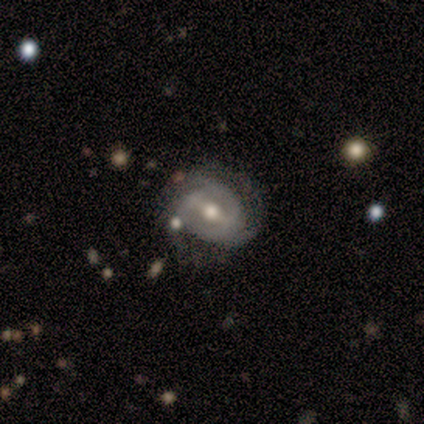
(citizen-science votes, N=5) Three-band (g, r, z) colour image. It shows a featured or disk galaxy (100%) with a weak bar (60%), 2 (40%, tied with can't tell) medium (60%) spiral arms (100%) and a moderate central bulge (100%). Merging: none (80%).